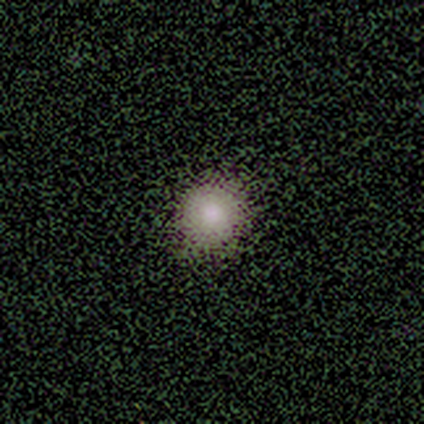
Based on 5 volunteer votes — A smooth galaxy with no disk features (80%) that is round (100%). Merging: none (100%).